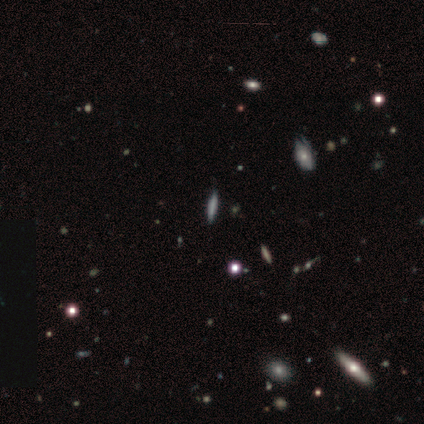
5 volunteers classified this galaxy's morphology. This is clearly a star or artifact rather than a galaxy (80%).